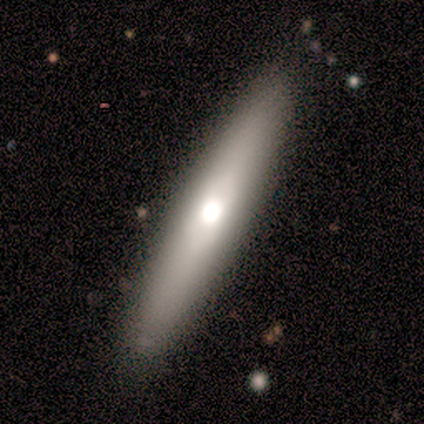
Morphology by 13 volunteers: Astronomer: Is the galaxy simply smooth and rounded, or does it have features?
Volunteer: smooth — 46%, tied with featured or disk at 46%.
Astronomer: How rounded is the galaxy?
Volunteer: cigar-shaped — 100%.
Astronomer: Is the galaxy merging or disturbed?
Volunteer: none — 83%.